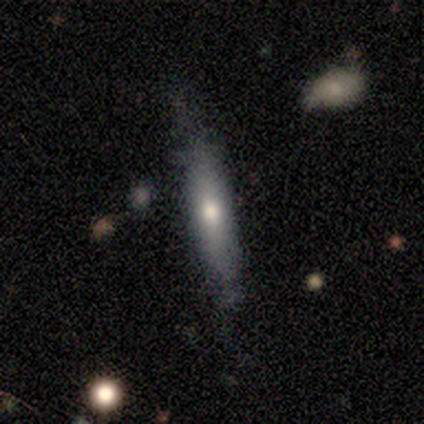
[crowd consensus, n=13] Overall: smooth (54%; featured or disk 46%). How rounded: cigar-shaped (100%). Merging: none (85%).